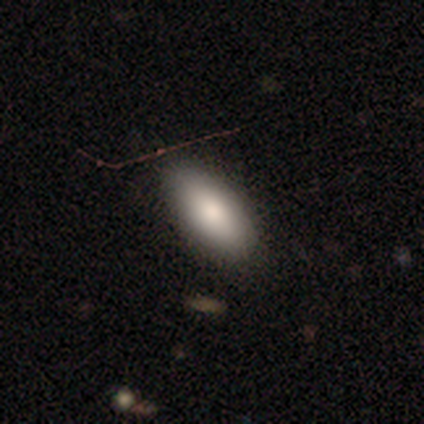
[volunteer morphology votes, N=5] Smooth or featured? 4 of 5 (80%) said smooth. How rounded? 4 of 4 (100%) said in between. Merging? 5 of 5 (100%) said none.